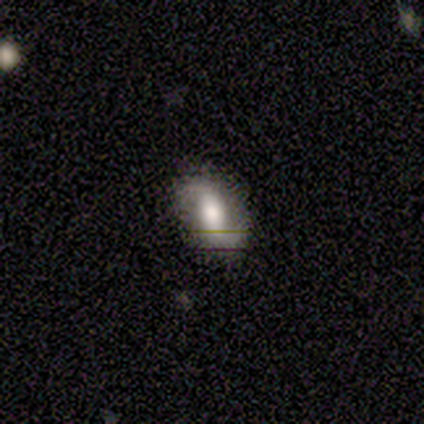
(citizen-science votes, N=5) This appears to be a featured or disk galaxy (80%) with no bar (75%), 2 (67%) medium (67%) spiral arms (75%) and a large central bulge (75%). Merging: none (100%).